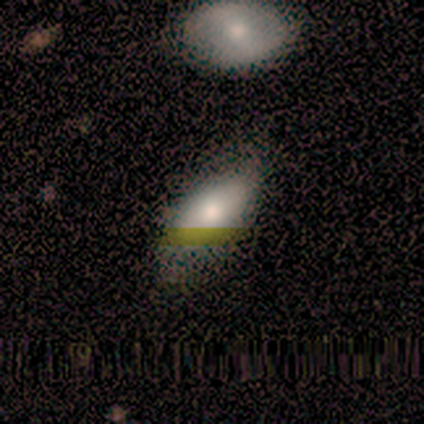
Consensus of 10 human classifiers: A smooth galaxy with no disk features (80%) that is in between round and cigar-shaped (75%). Merging: none (67%).